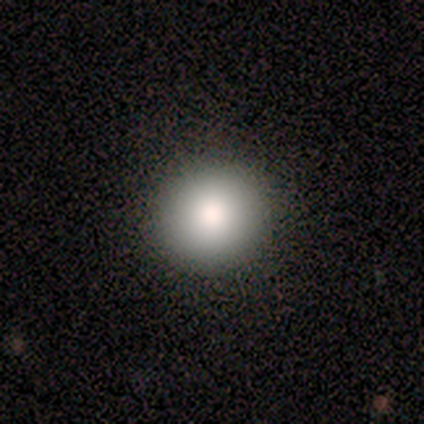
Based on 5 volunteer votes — A smooth galaxy with no disk features (80%) that is round (75%). Merging: none (100%).